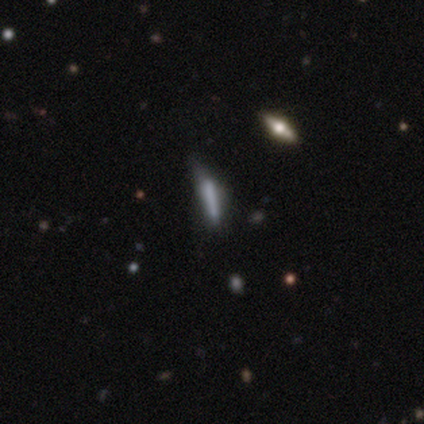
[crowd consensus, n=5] This is marginally a smooth galaxy (40%, tied with featured or disk). How rounded: clearly cigar-shaped (100%). Merging: likely none (75%).